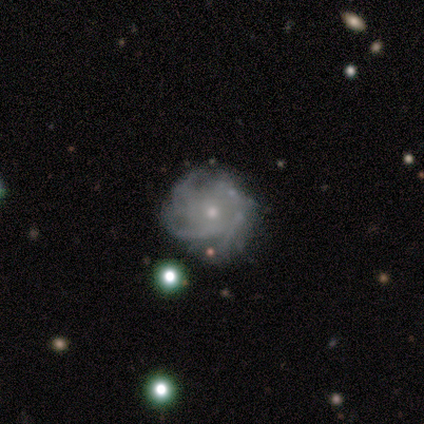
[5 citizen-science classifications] smooth_or_featured: featured or disk (p=1.00)
disk_edge_on: no (p=1.00)
bar: no (p=0.80) [alt: strong p=0.20]
has_spiral_arms: yes (p=0.80) [alt: no p=0.20]
spiral_winding: tight (p=0.75) [alt: loose p=0.25]
spiral_arm_count: can't tell (p=0.50) [alt: 2 p=0.25]
bulge_size: small (p=1.00)
merging: minor disturbance (p=0.60) [alt: none p=0.40]